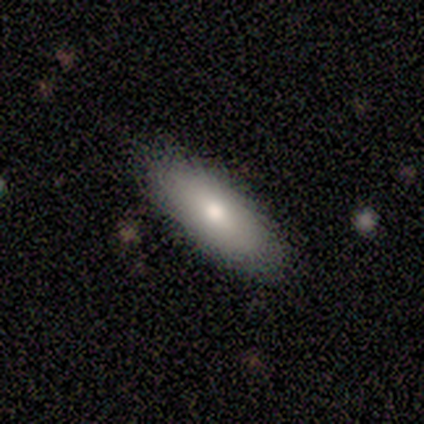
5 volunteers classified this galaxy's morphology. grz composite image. It shows a smooth galaxy with no disk features (80%) that is cigar-shaped (75%). Merging: none (100%).